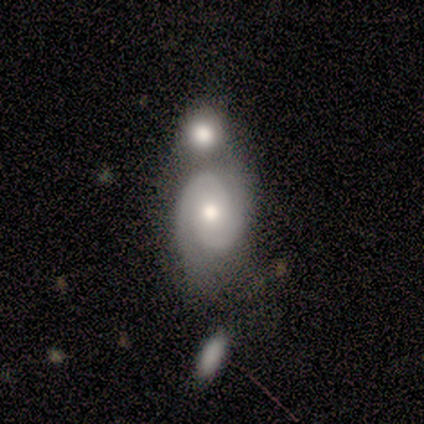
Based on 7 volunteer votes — smooth-or-featured: featured or disk: 100% | smooth: 0% | star or artifact: 0%
  disk-edge-on: no: 86% | yes: 14%
    bar: no: 100% | strong: 0% | weak: 0%
    has-spiral-arms: yes: 100% | no: 0%
      spiral-winding: tight: 67% | medium: 33% | loose: 0%
      spiral-arm-count: 2: 100% | 1: 0% | 3: 0% | 4: 0% | more than 4: 0% | can't tell: 0%
    bulge-size: moderate: 50% | large: 17% | small: 17% | none: 17% | dominant: 0%
  merging: none: 57% | merger: 43% | minor disturbance: 0% | major disturbance: 0%